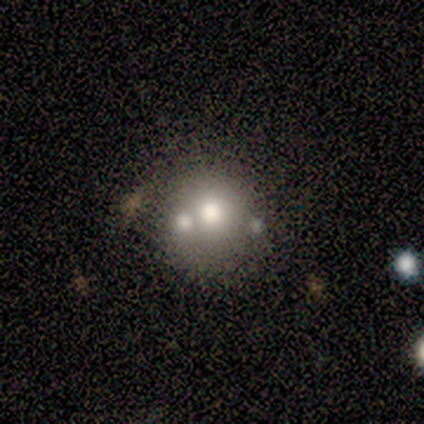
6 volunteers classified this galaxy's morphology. This is likely a smooth galaxy (67%). How rounded: clearly round (100%). Merging: clearly none (83%).